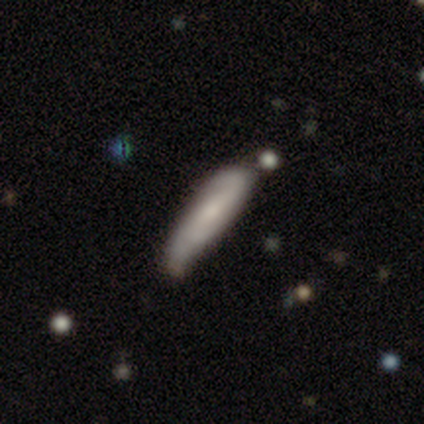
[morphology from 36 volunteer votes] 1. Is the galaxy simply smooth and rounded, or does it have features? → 50% featured or disk, 47% smooth, 3% star or artifact.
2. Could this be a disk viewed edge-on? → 67% no, 33% yes.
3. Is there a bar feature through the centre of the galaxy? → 50% weak, 33% no, 17% strong.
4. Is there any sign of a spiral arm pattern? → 92% yes, 8% no.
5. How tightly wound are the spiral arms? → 45% medium, 36% loose, 18% tight.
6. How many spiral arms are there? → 91% 2, 9% can't tell, 0% 1, 0% 3, 0% 4, 0% more than 4.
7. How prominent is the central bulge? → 67% small, 25% none, 8% moderate, 0% dominant, 0% large.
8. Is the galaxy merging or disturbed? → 57% none, 23% minor disturbance, 11% merger, 9% major disturbance.